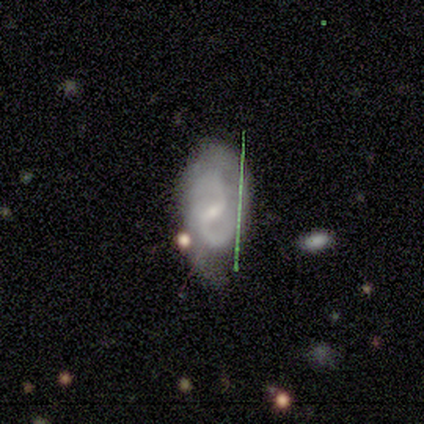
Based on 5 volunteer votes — smooth_or_featured: featured or disk (p=0.60) [alt: smooth p=0.40]
disk_edge_on: yes (p=0.67) [alt: no p=0.33]
edge_on_bulge: none (p=1.00)
merging: none (p=0.40) [alt: minor disturbance p=0.20]